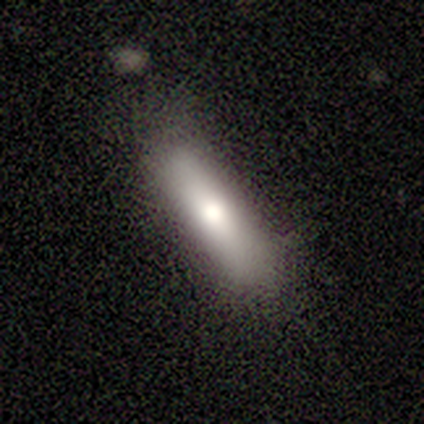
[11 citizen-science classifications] Volunteers were most divided on "how rounded": in between: 62%, cigar-shaped: 38%, round: 0%. More confident: merging — none (90%); smooth or featured — smooth (73%).